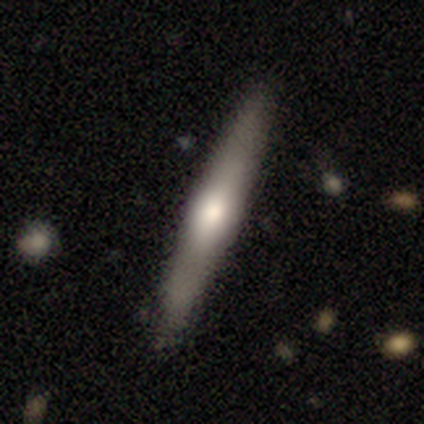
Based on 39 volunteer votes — Smooth or featured: featured or disk — 64% (smooth — 36%)
Edge-on disk: yes — 100%
Edge-on bulge: rounded — 80% (none — 12%)
Merging: none — 54% (minor disturbance — 10%)